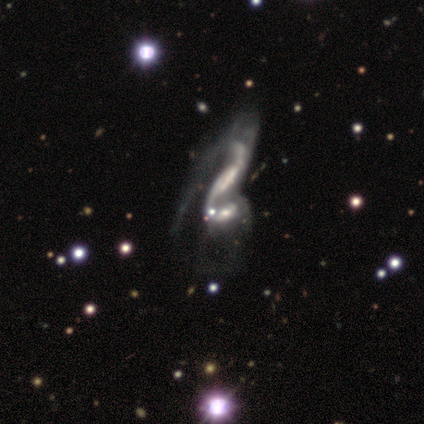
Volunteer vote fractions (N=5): This is clearly a featured or disk galaxy (100%). It is clearly not viewed edge-on (100%). Bar: likely no (60%). Spiral arm pattern: clearly yes (100%). Spiral arm count: clearly 2 (80%). Spiral winding: marginally tight (40%, tied with loose). Central bulge: likely none (60%). Merging: likely merger (60%).